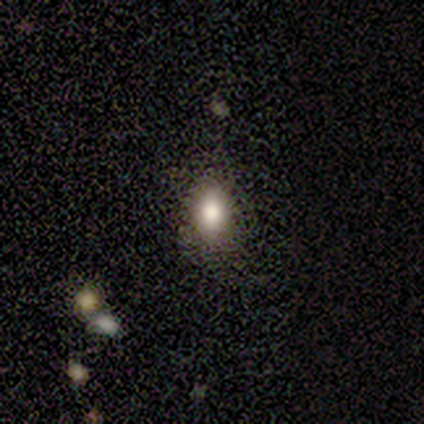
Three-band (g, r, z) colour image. It shows a smooth galaxy with no disk features (87%) that is in between round and cigar-shaped (73%). Merging: none (82%).